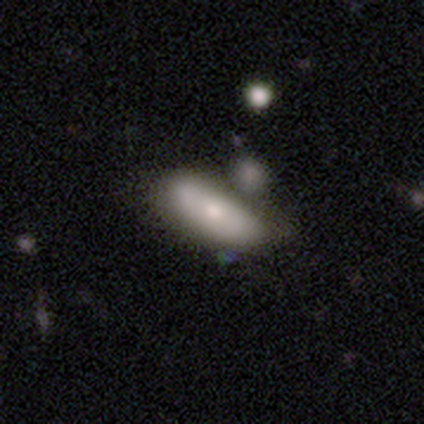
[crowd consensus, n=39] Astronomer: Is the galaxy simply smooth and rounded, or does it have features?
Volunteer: smooth — 59% (runner-up: featured or disk, 36%).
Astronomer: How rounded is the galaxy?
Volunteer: in between — 74%.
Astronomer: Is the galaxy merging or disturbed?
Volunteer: none — 49% (runner-up: minor disturbance, 27%).